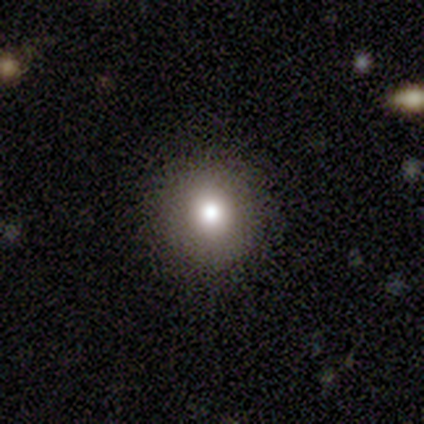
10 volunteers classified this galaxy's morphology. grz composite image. It shows a smooth galaxy with no disk features (80%) that is round (100%). Merging: none (89%).